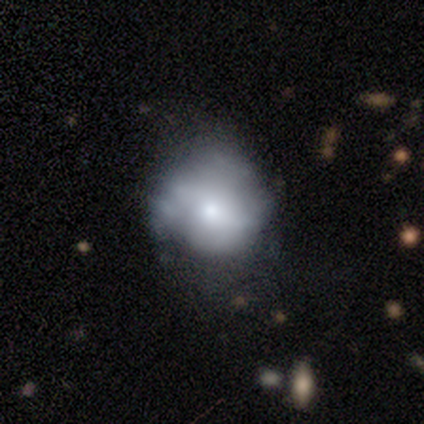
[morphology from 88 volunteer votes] smooth_or_featured: smooth (p=0.49) [alt: featured or disk p=0.43]
how_rounded: round (p=0.65) [alt: in between p=0.35]
merging: none (p=0.37) [alt: minor disturbance p=0.36]